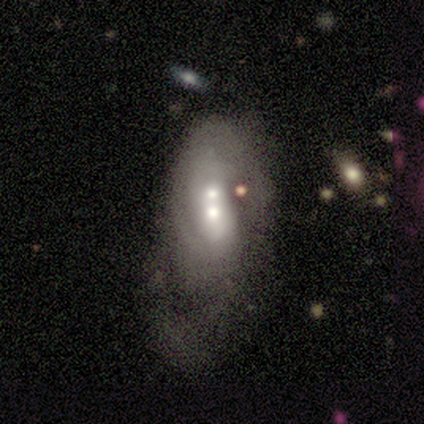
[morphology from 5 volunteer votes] Smooth or featured?
  - featured or disk: 80% *
  - smooth: 20%
  - star or artifact: 0%
Edge-on disk?
  - no: 100% *
  - yes: 0%
Bar?
  - no: 75% *
  - weak: 25%
  - strong: 0%
Spiral arms?
  - yes: 50% * (tied)
  - no: 50% * (tied)
Spiral winding?
  - tight: 50% * (tied)
  - loose: 50% * (tied)
  - medium: 0%
Spiral arm count?
  - 1: 50% * (tied)
  - 2: 50% * (tied)
  - 3: 0%
  - 4: 0%
  - more than 4: 0%
  - can't tell: 0%
Bulge size?
  - small: 50% *
  - dominant: 25%
  - moderate: 25%
  - large: 0%
  - none: 0%
Merging?
  - major disturbance: 60% *
  - none: 20%
  - merger: 20%
  - minor disturbance: 0%